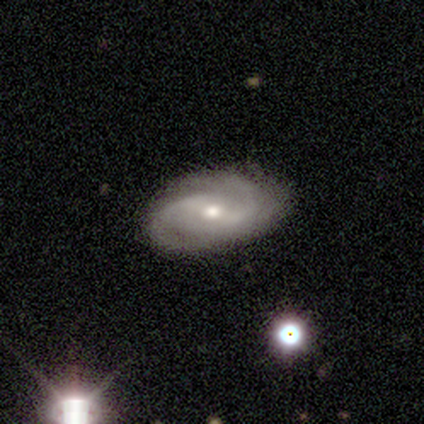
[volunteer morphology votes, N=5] Smooth or featured? featured or disk (100%)
Edge-on disk? no (100%)
Bar? weak (40%, tied with no)
Spiral arms? yes (100%)
Spiral winding? medium (40%, tied with loose)
Spiral arm count? 2 (100%)
Bulge size? moderate (60%)
Merging? none (80%)